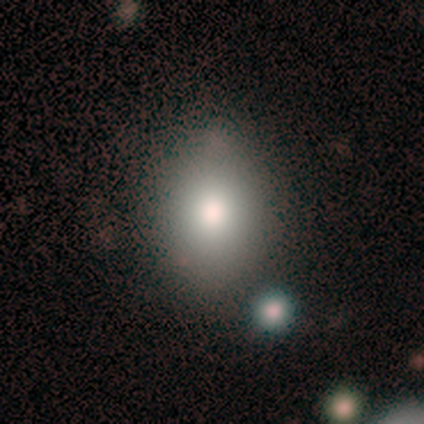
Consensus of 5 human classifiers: Volunteers were most divided on "smooth or featured" (2-way tie): smooth: 40%, star or artifact: 40%, featured or disk: 20%. More confident: how rounded — in between (100%); merging — none (100%).